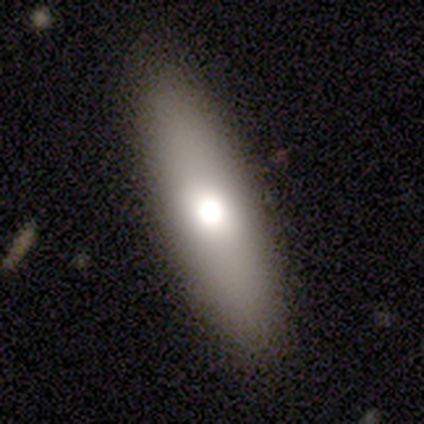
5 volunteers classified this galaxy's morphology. smooth-or-featured: smooth: 80% | featured or disk: 20% | star or artifact: 0%
  how-rounded: cigar-shaped: 75% | in between: 25% | round: 0%
  merging: none: 80% | minor disturbance: 20% | major disturbance: 0% | merger: 0%